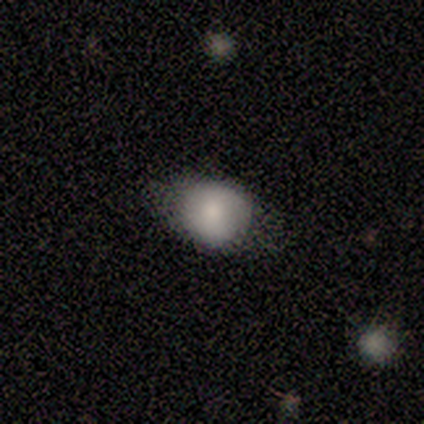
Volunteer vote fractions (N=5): A smooth galaxy with no disk features (60%) that is in between round and cigar-shaped (100%).

Vote fractions:
- Smooth or featured? smooth: 60% / star or artifact: 40% / featured or disk: 0%
- How rounded? in between: 100% / round: 0% / cigar-shaped: 0%
- Merging? none: 67% / minor disturbance: 33% / major disturbance: 0% / merger: 0%